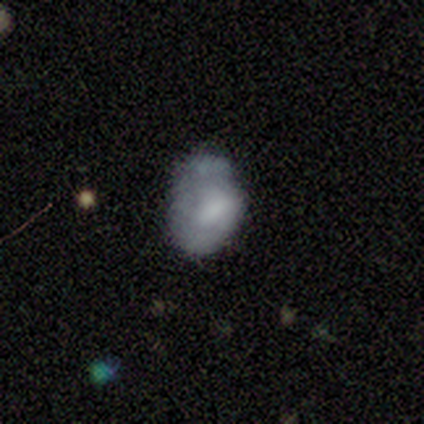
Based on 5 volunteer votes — This is clearly a smooth galaxy (80%). How rounded: likely in between (75%). Merging: likely merger (60%).